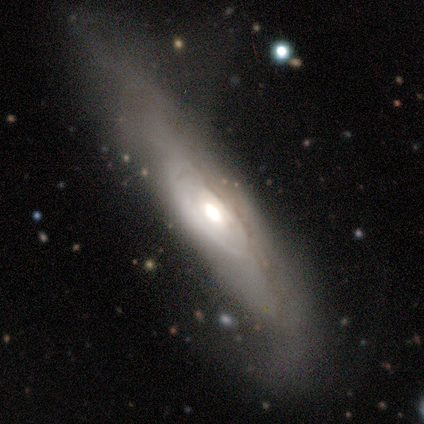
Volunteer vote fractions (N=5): Smooth or featured? featured or disk (80%)
Edge-on disk? no (100%)
Bar? no (75%)
Spiral arms? no (75%)
Bulge size? moderate (50%)
Merging? minor disturbance (60%)